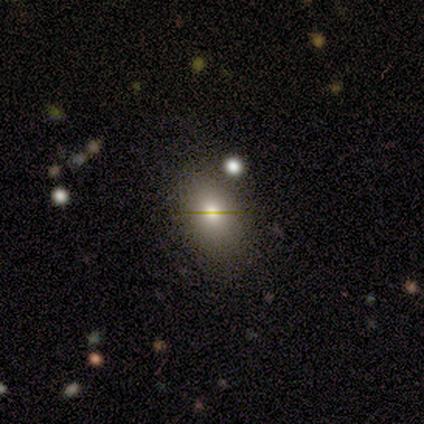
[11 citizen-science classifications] This appears to be a smooth galaxy with no disk features (73%) that is in between round and cigar-shaped (75%). Merging: none (44%, tied with minor disturbance).